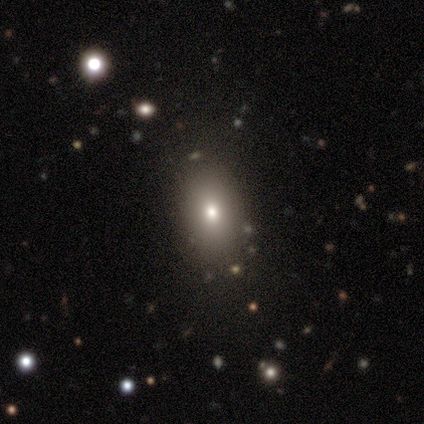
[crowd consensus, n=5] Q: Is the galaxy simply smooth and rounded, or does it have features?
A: smooth — 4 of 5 (80%).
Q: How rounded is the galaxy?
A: in between — 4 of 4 (100%).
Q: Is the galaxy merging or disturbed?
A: none — 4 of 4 (100%).